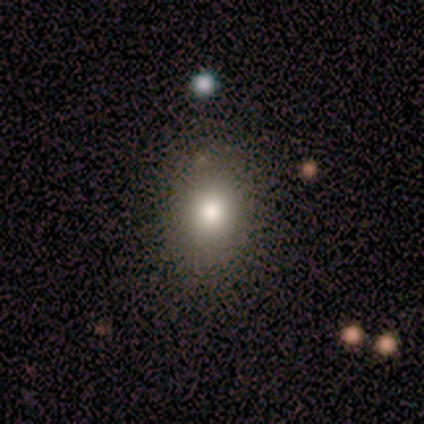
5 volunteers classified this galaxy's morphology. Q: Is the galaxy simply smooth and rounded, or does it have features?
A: smooth — 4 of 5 (80%).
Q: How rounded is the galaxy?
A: round — 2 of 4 (50%, tied with in between).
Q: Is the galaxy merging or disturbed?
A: none — 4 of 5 (80%).